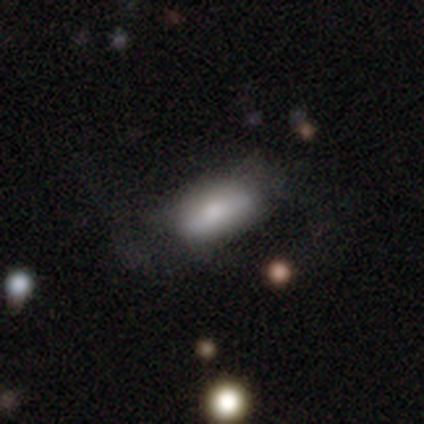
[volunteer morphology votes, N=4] Overall: smooth (100%). How rounded: in between (100%). Merging: minor disturbance (50%; none 25%).